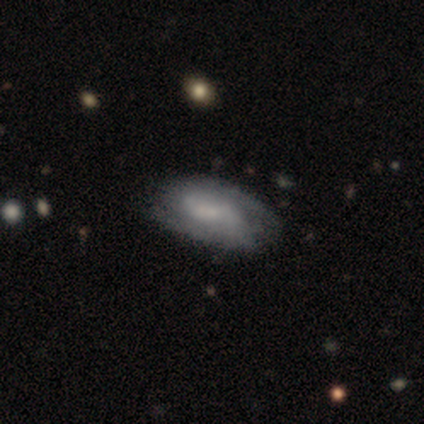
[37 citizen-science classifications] Smooth or featured?
  - featured or disk: 70% *
  - smooth: 27%
  - star or artifact: 3%
Edge-on disk?
  - no: 96% *
  - yes: 4%
Bar?
  - weak: 48% *
  - no: 44%
  - strong: 8%
Spiral arms?
  - yes: 76% *
  - no: 24%
Spiral winding?
  - medium: 42% *
  - tight: 37%
  - loose: 21%
Spiral arm count?
  - 2: 79% *
  - can't tell: 21%
  - 1: 0%
  - 3: 0%
  - 4: 0%
  - more than 4: 0%
Bulge size?
  - none: 60% *
  - small: 20%
  - moderate: 16%
  - large: 4%
  - dominant: 0%
Merging?
  - none: 61% *
  - minor disturbance: 11%
  - major disturbance: 6%
  - merger: 3%